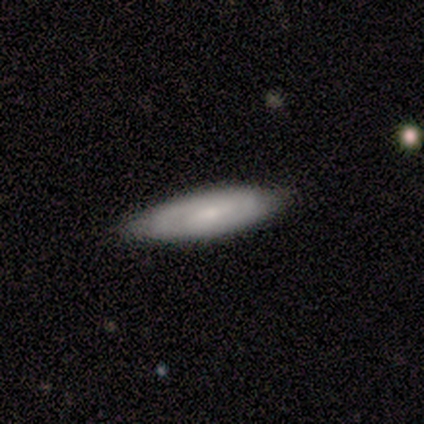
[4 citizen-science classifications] Q: Smooth or featured?
A: smooth (50%); tied with: featured or disk (50%)
Q: How rounded?
A: cigar-shaped (100%)
Q: Merging?
A: none (75%); runner-up: minor disturbance (25%)